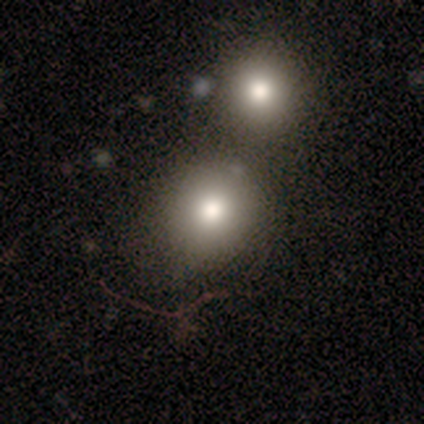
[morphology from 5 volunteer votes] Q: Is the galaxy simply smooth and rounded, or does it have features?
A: smooth — 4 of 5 (80%).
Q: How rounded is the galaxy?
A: round — 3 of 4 (75%).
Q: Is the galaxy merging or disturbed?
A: none — 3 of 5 (60%).